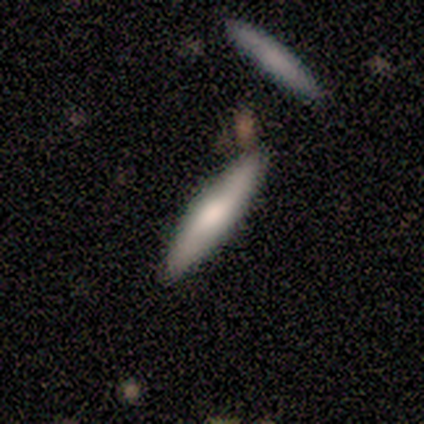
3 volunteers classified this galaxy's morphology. A smooth galaxy with no disk features (67%) that is cigar-shaped (100%). Merging: none (100%).